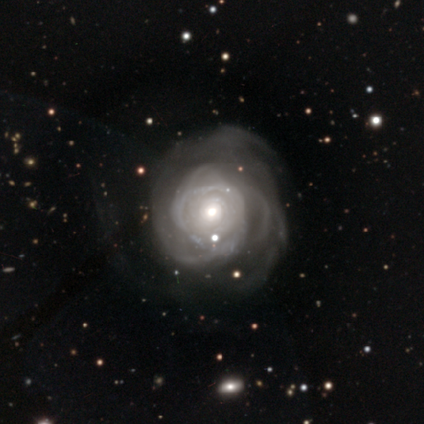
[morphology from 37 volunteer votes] Smooth or featured: featured or disk — 86% (star or artifact — 8%)
Edge-on disk: no — 100%
Bar: no — 91% (weak — 6%)
Spiral arms: yes — 75% (no — 25%)
Spiral winding: tight — 58% (medium — 29%)
Spiral arm count: can't tell — 54% (more than 4 — 25%)
Bulge size: moderate — 72% (large — 12%)
Merging: none — 44% (major disturbance — 41%)